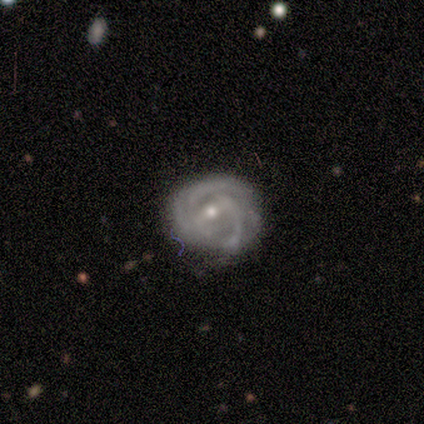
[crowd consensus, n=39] Smooth or featured?
  - featured or disk: 82% *
  - smooth: 13%
  - star or artifact: 5%
Edge-on disk?
  - no: 94% *
  - yes: 6%
Bar?
  - weak: 53% *
  - strong: 27%
  - no: 20%
Spiral arms?
  - yes: 90% *
  - no: 10%
Spiral winding?
  - tight: 59% *
  - medium: 30%
  - loose: 11%
Spiral arm count?
  - can't tell: 48% *
  - 3: 30%
  - 2: 22%
  - 1: 0%
  - 4: 0%
  - more than 4: 0%
Bulge size?
  - moderate: 60% *
  - small: 40%
  - dominant: 0%
  - large: 0%
  - none: 0%
Merging?
  - none: 57% *
  - minor disturbance: 24%
  - major disturbance: 14%
  - merger: 5%